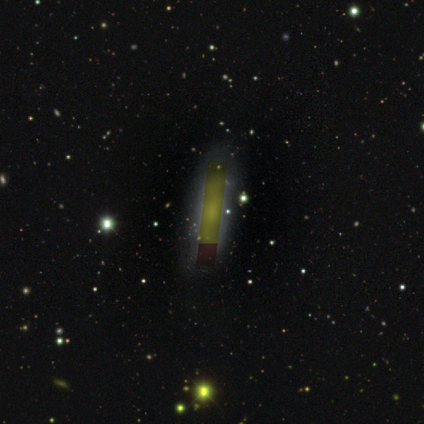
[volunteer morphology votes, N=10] Volunteers were most divided on "smooth or featured": star or artifact: 50%, featured or disk: 30%, smooth: 20%.